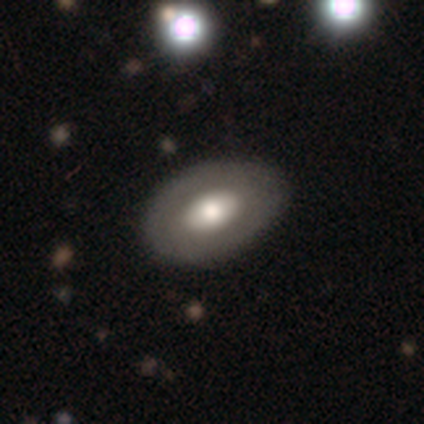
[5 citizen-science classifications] A smooth galaxy with no disk features (80%) that is in between round and cigar-shaped (100%).

Vote fractions:
- Smooth or featured? smooth: 80% / featured or disk: 20% / star or artifact: 0%
- How rounded? in between: 100% / round: 0% / cigar-shaped: 0%
- Merging? none: 100% / minor disturbance: 0% / major disturbance: 0% / merger: 0%